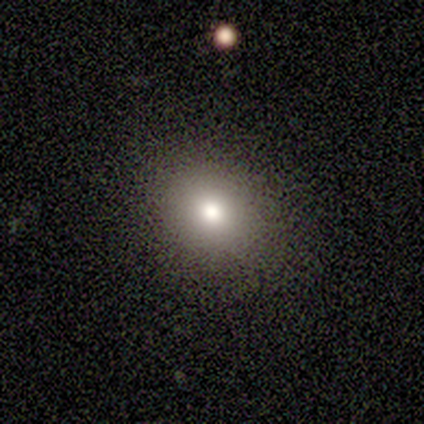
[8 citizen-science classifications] smooth-or-featured: smooth: 88% | star or artifact: 12% | featured or disk: 0%
  how-rounded: round: 57% | in between: 43% | cigar-shaped: 0%
  merging: none: 86% | minor disturbance: 14% | major disturbance: 0% | merger: 0%